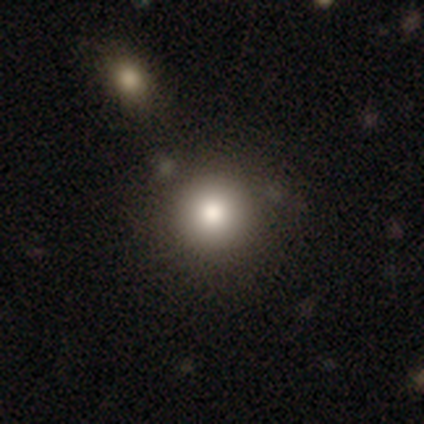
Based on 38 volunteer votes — Smooth or featured?
  - smooth: 82% *
  - star or artifact: 11%
  - featured or disk: 8%
How rounded?
  - round: 100% *
  - in between: 0%
  - cigar-shaped: 0%
Merging?
  - none: 76% *
  - merger: 15%
  - minor disturbance: 6%
  - major disturbance: 3%